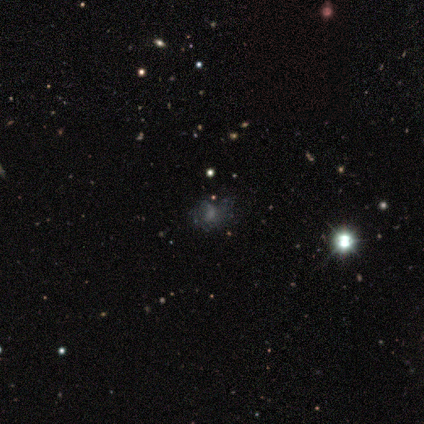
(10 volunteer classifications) Overall: smooth (40%; featured or disk 30%). How rounded: round (75%). Merging: none (57%; minor disturbance 29%).